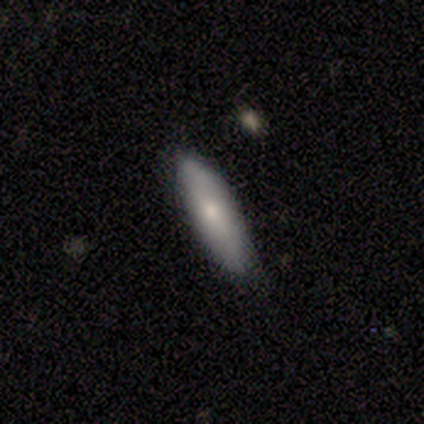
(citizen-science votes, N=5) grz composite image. It shows a smooth galaxy with no disk features (80%) that is cigar-shaped (75%). Merging: none (100%).